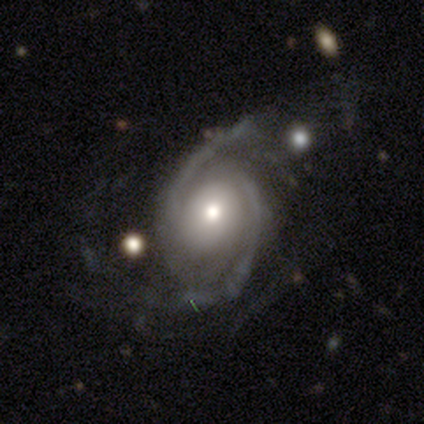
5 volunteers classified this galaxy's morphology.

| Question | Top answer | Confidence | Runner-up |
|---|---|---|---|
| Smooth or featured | featured or disk | 100% | — |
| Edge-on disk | no | 100% | — |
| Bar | no | 80% | weak (20%) |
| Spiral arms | yes | 100% | — |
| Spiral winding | tight | 40% | tied: medium (40%) |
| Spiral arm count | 2 | 100% | — |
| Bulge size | moderate | 80% | small (20%) |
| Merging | none | 100% | — |